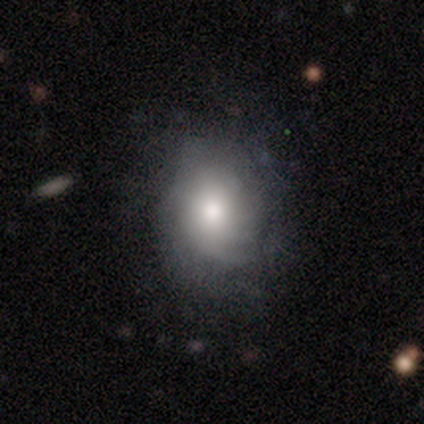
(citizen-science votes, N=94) smooth-or-featured: smooth: 48% | featured or disk: 45% | star or artifact: 7%
  how-rounded: in between: 51% | round: 49% | cigar-shaped: 0%
  merging: none: 63% | minor disturbance: 23% | major disturbance: 13% | merger: 1%